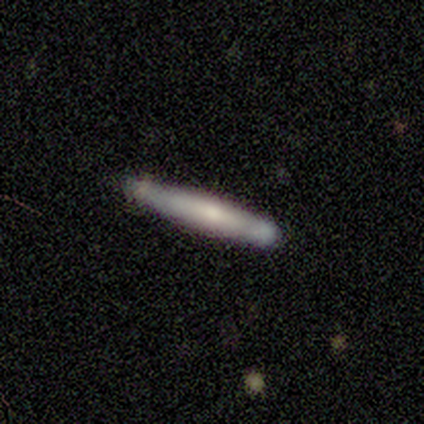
Smooth or featured? 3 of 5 (60%) said smooth. How rounded? 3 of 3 (100%) said cigar-shaped. Merging? 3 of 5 (60%) said none.